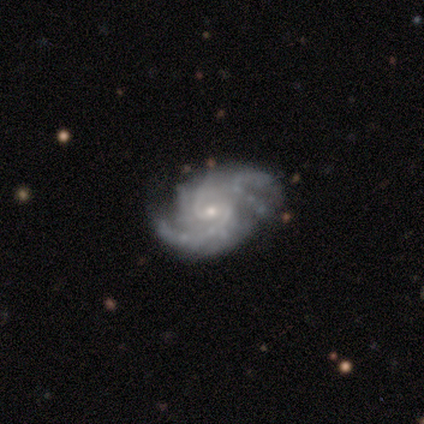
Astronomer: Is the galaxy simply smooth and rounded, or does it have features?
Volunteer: featured or disk — 95%.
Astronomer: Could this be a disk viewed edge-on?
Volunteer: no — 93%.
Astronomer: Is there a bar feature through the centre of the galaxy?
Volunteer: weak — 50% (runner-up: no, 34%).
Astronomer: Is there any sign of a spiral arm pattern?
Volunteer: yes — 100%.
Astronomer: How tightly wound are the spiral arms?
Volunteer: medium — 58% (runner-up: tight, 34%).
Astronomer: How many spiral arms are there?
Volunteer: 2 — 45%.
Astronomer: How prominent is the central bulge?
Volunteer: small — 84%.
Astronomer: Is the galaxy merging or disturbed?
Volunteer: none — 63%.